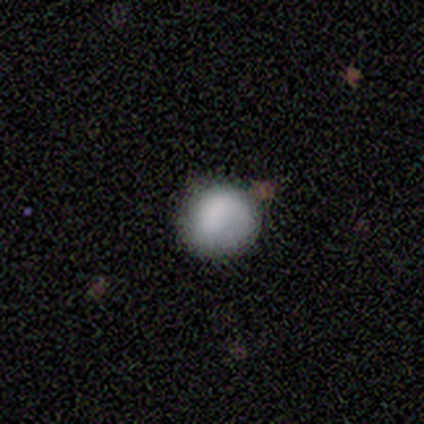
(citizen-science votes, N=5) Morphology: type=smooth (60%); roundness=round (100%); merging=none (75%).